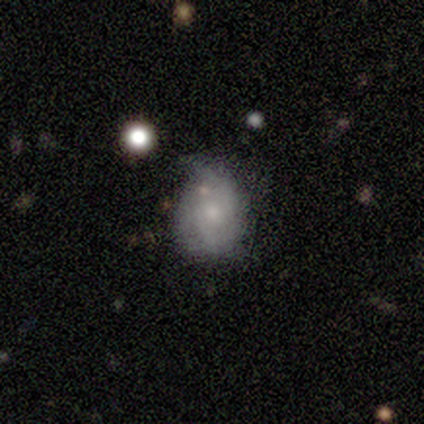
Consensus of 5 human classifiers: smooth_or_featured: smooth (p=0.60) [alt: featured or disk p=0.40]
how_rounded: round (p=1.00)
merging: none (p=0.40) [alt: minor disturbance p=0.20]